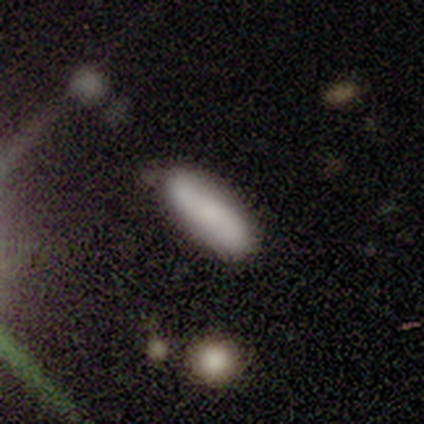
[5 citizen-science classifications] Volunteers were most divided on "smooth or featured": smooth: 60%, featured or disk: 40%, star or artifact: 0%. More confident: how rounded — cigar-shaped (67%); merging — none (60%).